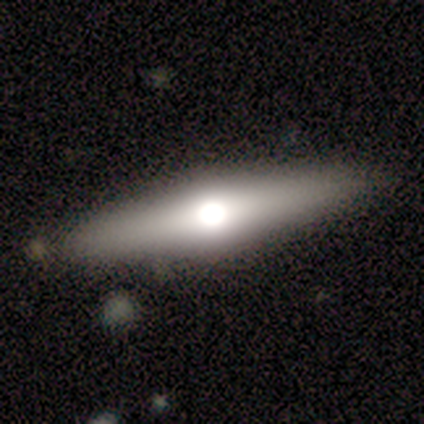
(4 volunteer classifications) smooth-or-featured: featured or disk: 75% | smooth: 25% | star or artifact: 0%
  disk-edge-on: yes: 100% | no: 0%
    edge-on-bulge: rounded: 100% | boxy: 0% | none: 0%
  merging: none: 75% | merger: 25% | minor disturbance: 0% | major disturbance: 0%